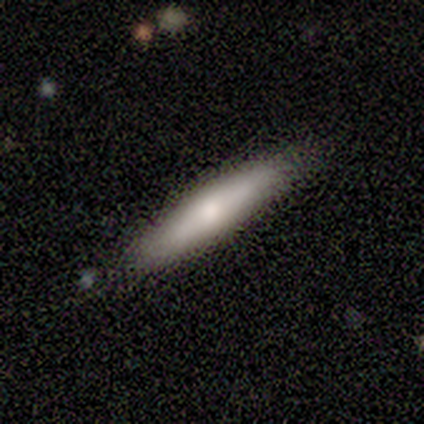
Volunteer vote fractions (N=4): Smooth or featured: smooth — 75% (featured or disk — 25%)
How rounded: cigar-shaped — 100%
Merging: none — 100%